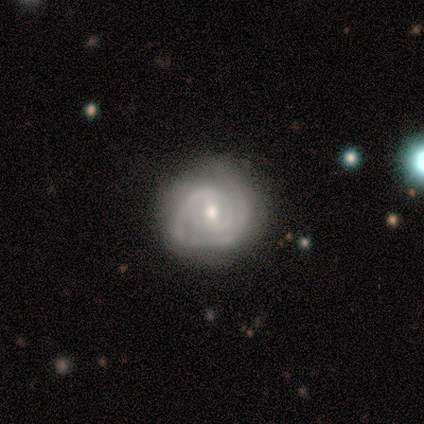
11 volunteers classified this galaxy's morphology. Smooth or featured: featured or disk — 73% (smooth — 27%)
Edge-on disk: no — 100%
Bar: weak — 62% (no — 38%)
Spiral arms: yes — 100%
Spiral winding: tight — 50% (tied with medium — 50%)
Spiral arm count: 2 — 62% (1 — 12%)
Bulge size: moderate — 50% (tied with small — 50%)
Merging: none — 27% (minor disturbance — 18%)